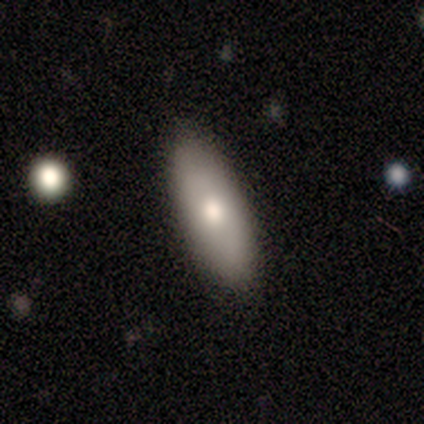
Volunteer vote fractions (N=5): smooth 80%, star or artifact 20%, featured or disk 0%. Down the decision tree: how rounded — in between (75%); merging — none (75%).